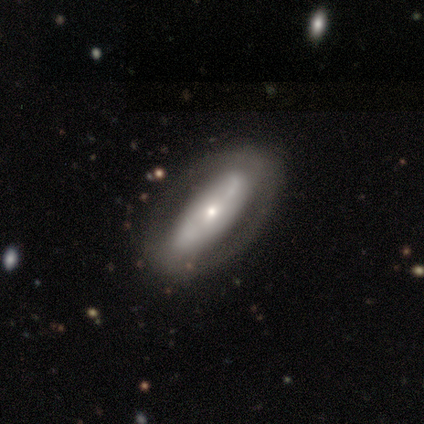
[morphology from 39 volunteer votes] Smooth or featured? featured or disk (62%)
Edge-on disk? no (92%)
Bar? no (50%)
Spiral arms? no (68%)
Bulge size? small (73%)
Merging? none (70%)